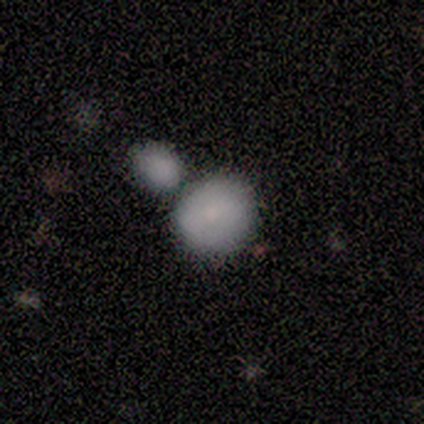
Volunteers were most divided on "merging": none: 50%, minor disturbance: 33%, merger: 17%, major disturbance: 0%. More confident: how rounded — round (75%); smooth or featured — smooth (67%).